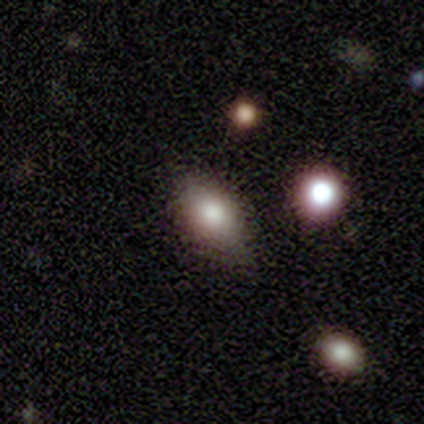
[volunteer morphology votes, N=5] type=smooth (60%); roundness=in between (100%); merging=minor disturbance (67%).